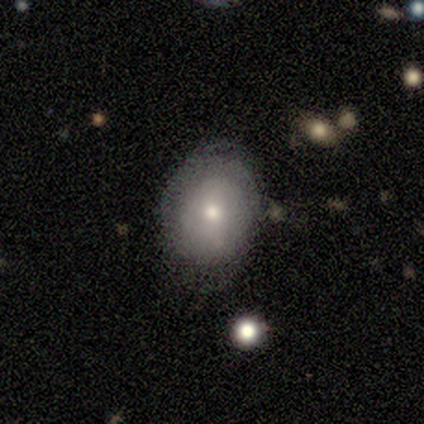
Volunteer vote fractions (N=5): Smooth or featured?
  - smooth: 60% *
  - featured or disk: 20%
  - star or artifact: 20%
How rounded?
  - in between: 100% *
  - round: 0%
  - cigar-shaped: 0%
Merging?
  - none: 100% *
  - minor disturbance: 0%
  - major disturbance: 0%
  - merger: 0%